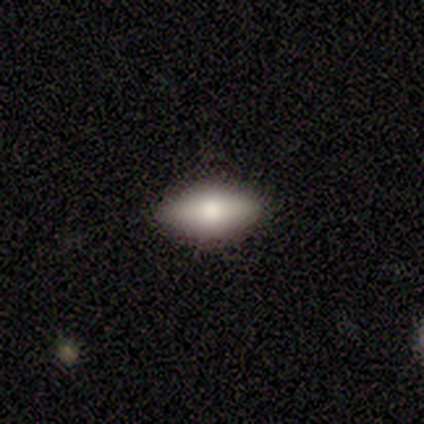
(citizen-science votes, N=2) Q: Smooth or featured?
A: smooth (100%)
Q: How rounded?
A: in between (50%); tied with: cigar-shaped (50%)
Q: Merging?
A: none (100%)